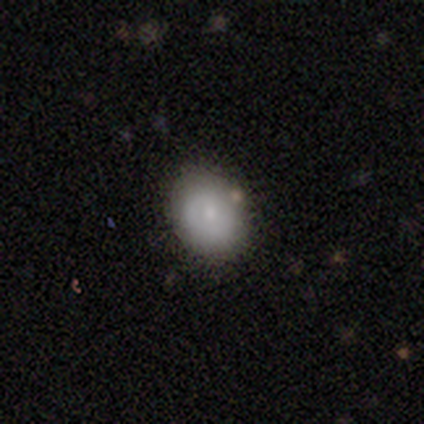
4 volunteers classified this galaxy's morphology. Smooth or featured: featured or disk — 75% (smooth — 25%)
Edge-on disk: no — 100%
Bar: no — 100%
Spiral arms: no — 100%
Bulge size: small — 67% (none — 33%)
Merging: none — 75% (minor disturbance — 25%)